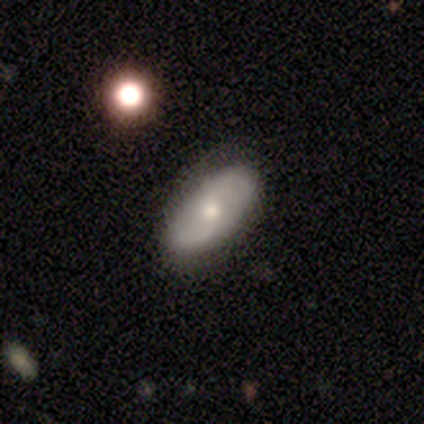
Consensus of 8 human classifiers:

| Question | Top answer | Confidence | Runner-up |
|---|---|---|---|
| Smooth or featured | featured or disk | 75% | smooth (25%) |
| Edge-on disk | no | 100% | — |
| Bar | no | 83% | weak (17%) |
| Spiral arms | yes | 67% | no (33%) |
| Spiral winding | loose | 50% | tight (25%) |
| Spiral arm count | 2 | 100% | — |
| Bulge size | moderate | 83% | small (17%) |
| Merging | none | 100% | — |